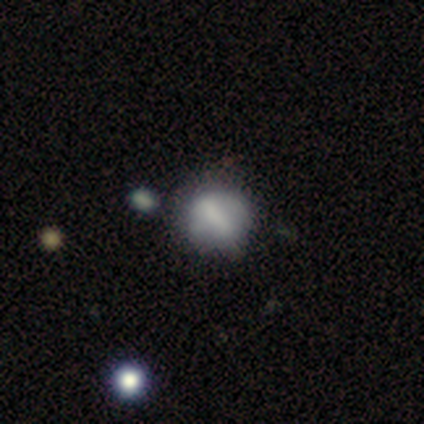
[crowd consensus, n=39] This appears to be a smooth galaxy with no disk features (64%) that is round (60%). Merging: none (56%).